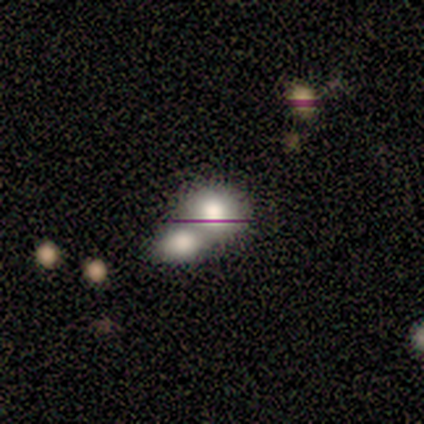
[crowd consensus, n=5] smooth-or-featured: star or artifact: 60% | smooth: 40% | featured or disk: 0%